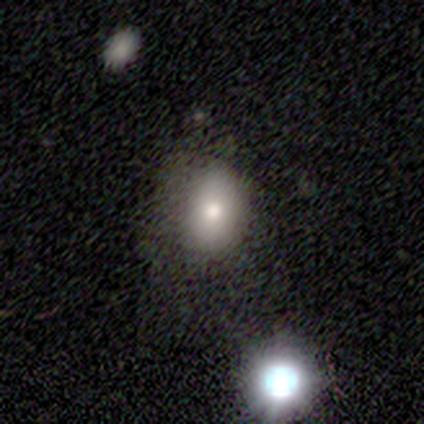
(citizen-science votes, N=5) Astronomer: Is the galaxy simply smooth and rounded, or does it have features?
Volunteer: star or artifact — 60% (runner-up: featured or disk, 40%).